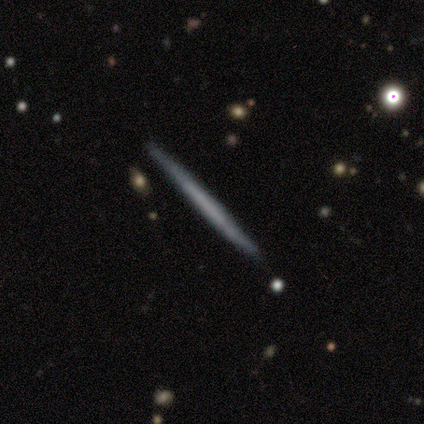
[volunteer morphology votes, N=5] type=featured or disk (60%); edge-on=yes (100%); edge-on bulge=none (67%); merging=none (100%).